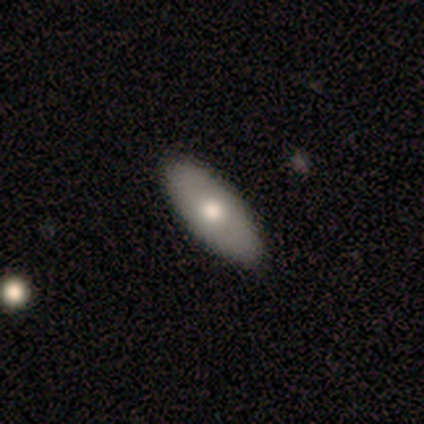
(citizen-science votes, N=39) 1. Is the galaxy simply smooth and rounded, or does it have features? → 54% smooth, 44% featured or disk, 3% star or artifact.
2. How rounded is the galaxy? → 81% in between, 19% cigar-shaped, 0% round.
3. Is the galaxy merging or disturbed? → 74% none, 3% minor disturbance, 3% merger, 0% major disturbance.